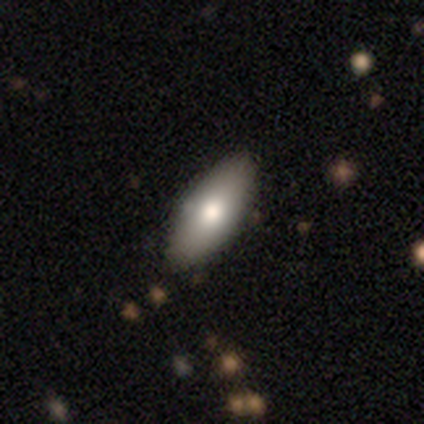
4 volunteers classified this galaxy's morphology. This is likely a smooth galaxy (75%). How rounded: likely in between (67%). Merging: clearly none (100%).